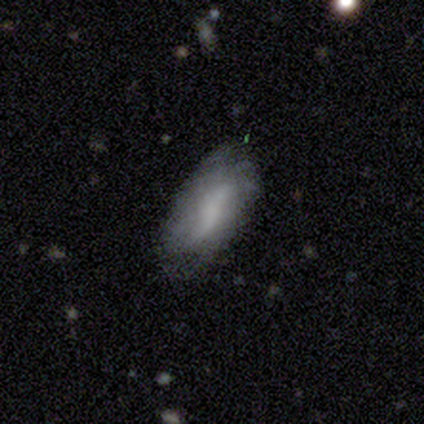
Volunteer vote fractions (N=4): smooth_or_featured: smooth (p=0.75) [alt: featured or disk p=0.25]
how_rounded: in between (p=1.00)
merging: none (p=0.75) [alt: minor disturbance p=0.25]